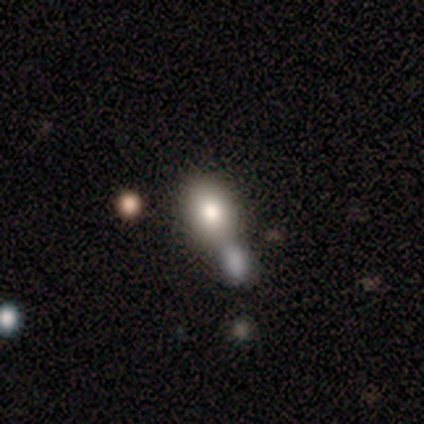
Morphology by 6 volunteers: smooth 83%, featured or disk 17%, star or artifact 0%. Down the decision tree: how rounded — in between (100%); merging — merger (83%).